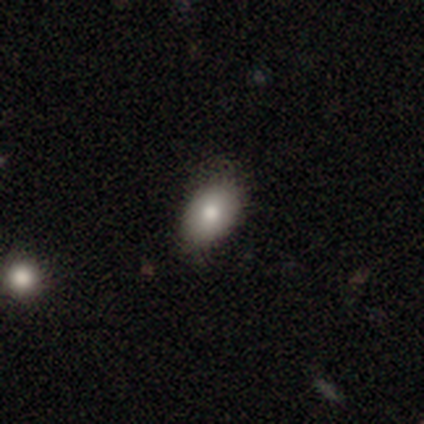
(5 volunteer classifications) A smooth galaxy with no disk features (100%) that is in between round and cigar-shaped (100%). Merging: none (60%).